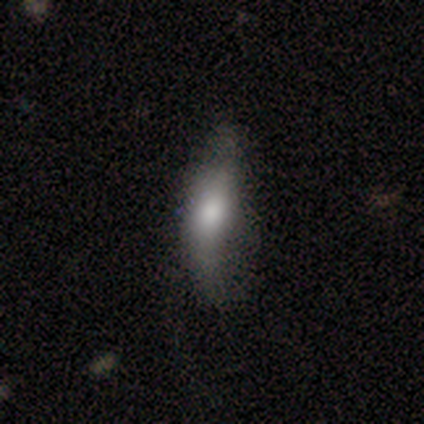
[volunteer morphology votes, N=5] A smooth galaxy with no disk features (40%, tied with featured or disk) that is cigar-shaped (100%).

Vote fractions:
- Smooth or featured? smooth: 40% (tied) / featured or disk: 40% (tied) / star or artifact: 20%
- How rounded? cigar-shaped: 100% / round: 0% / in between: 0%
- Merging? none: 75% / minor disturbance: 25% / major disturbance: 0% / merger: 0%